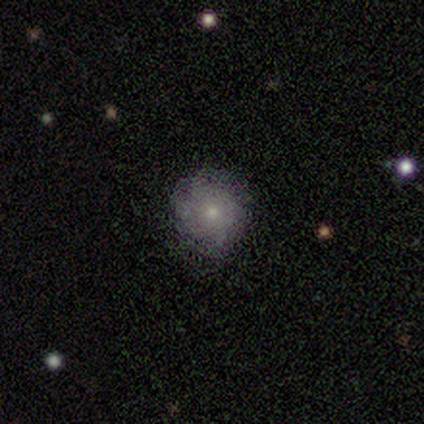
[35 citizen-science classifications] This is possibly a smooth galaxy (49%). How rounded: clearly round (82%). Merging: likely none (79%).